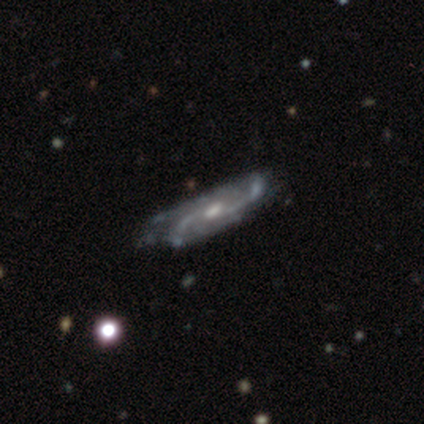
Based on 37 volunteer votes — A featured or disk galaxy (100%) with no bar (66%), 2 (31%) medium (50%) spiral arms (100%) and a moderate central bulge (62%).

Vote fractions:
- Smooth or featured? featured or disk: 100% / smooth: 0% / star or artifact: 0%
- Edge-on disk? no: 86% / yes: 14%
- Bar? no: 66% / weak: 25% / strong: 9%
- Spiral arms? yes: 100% / no: 0%
- Spiral winding? medium: 50% / loose: 47% / tight: 3%
- Spiral arm count? 2: 31% / 3: 25% / can't tell: 25% / 4: 19% / 1: 0% / more than 4: 0%
- Bulge size? moderate: 62% / small: 22% / none: 12% / large: 3% / dominant: 0%
- Merging? none: 32% / minor disturbance: 19% / major disturbance: 11% / merger: 0%